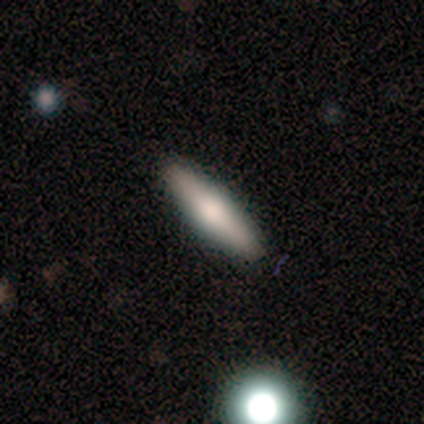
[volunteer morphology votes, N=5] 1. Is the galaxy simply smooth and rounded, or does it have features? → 60% smooth, 40% featured or disk, 0% star or artifact.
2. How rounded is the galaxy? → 100% cigar-shaped, 0% round, 0% in between.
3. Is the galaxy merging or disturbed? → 100% none, 0% minor disturbance, 0% major disturbance, 0% merger.